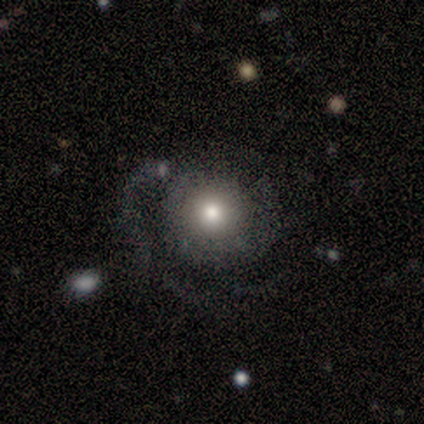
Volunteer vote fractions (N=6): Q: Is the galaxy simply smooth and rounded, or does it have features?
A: smooth — 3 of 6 (50%, tied with featured or disk).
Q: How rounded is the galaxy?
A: round — 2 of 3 (67%).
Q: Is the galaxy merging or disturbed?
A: minor disturbance — 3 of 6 (50%).